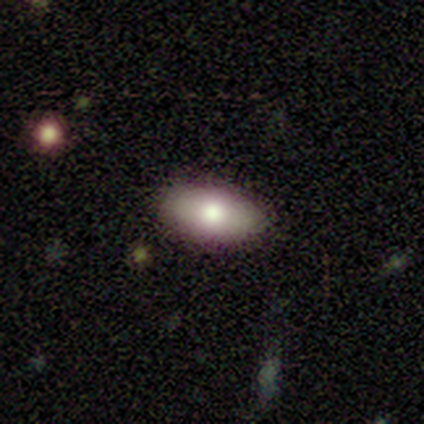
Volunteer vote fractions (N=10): A smooth galaxy with no disk features (100%) that is in between round and cigar-shaped (100%).

Vote fractions:
- Smooth or featured? smooth: 100% / featured or disk: 0% / star or artifact: 0%
- How rounded? in between: 100% / round: 0% / cigar-shaped: 0%
- Merging? none: 50% (tied) / minor disturbance: 50% (tied) / major disturbance: 0% / merger: 0%